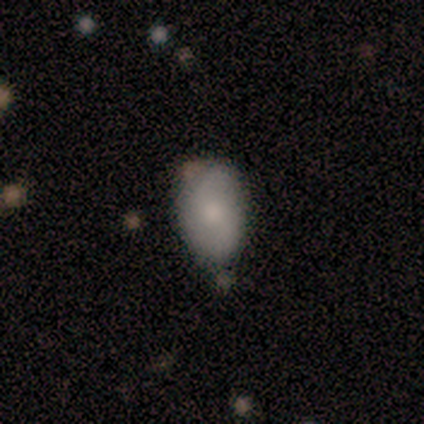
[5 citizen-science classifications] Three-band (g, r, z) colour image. It shows a smooth galaxy with no disk features (60%) that is in between round and cigar-shaped (100%). Merging: none (80%).